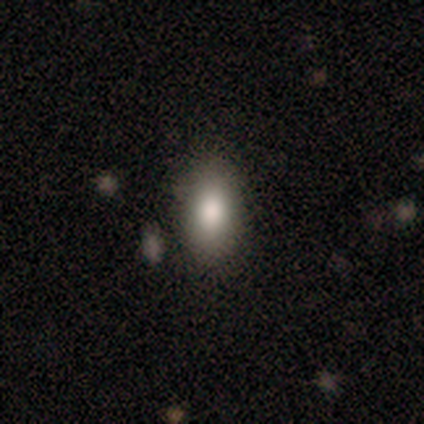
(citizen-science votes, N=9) Overall: smooth (89%). How rounded: in between (88%). Merging: none (78%).